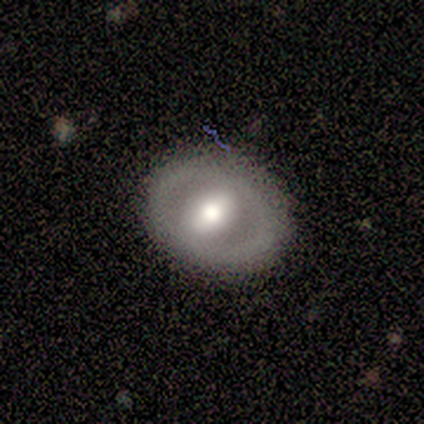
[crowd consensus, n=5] A featured or disk galaxy (80%) with no bar (67%), no spiral arms (100%) and a large central bulge (67%).

Vote fractions:
- Smooth or featured? featured or disk: 80% / star or artifact: 20% / smooth: 0%
- Edge-on disk? no: 75% / yes: 25%
- Bar? no: 67% / weak: 33% / strong: 0%
- Spiral arms? no: 100% / yes: 0%
- Bulge size? large: 67% / moderate: 33% / dominant: 0% / small: 0% / none: 0%
- Merging? none: 75% / minor disturbance: 25% / major disturbance: 0% / merger: 0%